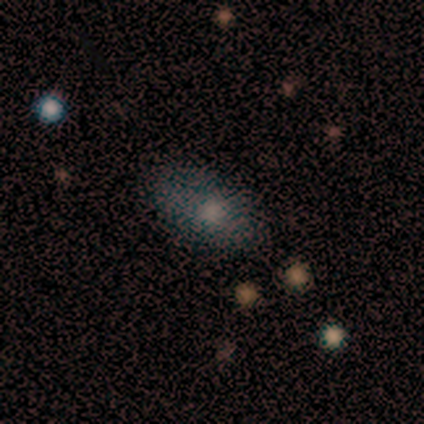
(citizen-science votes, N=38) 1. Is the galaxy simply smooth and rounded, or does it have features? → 55% smooth, 26% star or artifact, 18% featured or disk.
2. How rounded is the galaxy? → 95% in between, 5% cigar-shaped, 0% round.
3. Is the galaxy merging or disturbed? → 71% none, 18% minor disturbance, 11% major disturbance, 0% merger.